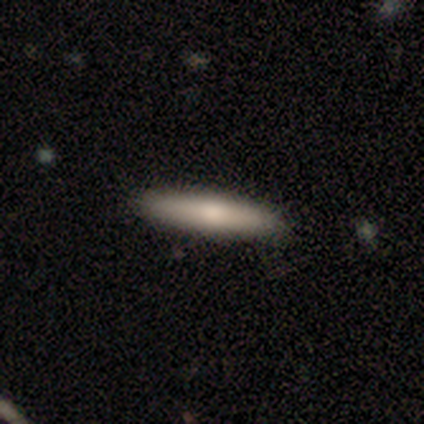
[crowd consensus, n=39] A smooth galaxy with no disk features (69%) that is cigar-shaped (81%).

Vote fractions:
- Smooth or featured? smooth: 69% / featured or disk: 28% / star or artifact: 3%
- How rounded? cigar-shaped: 81% / in between: 15% / round: 4%
- Merging? none: 71% / minor disturbance: 5% / merger: 5% / major disturbance: 0%